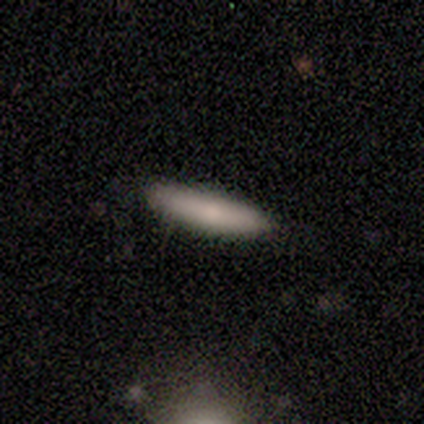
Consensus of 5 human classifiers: smooth-or-featured: smooth: 80% | featured or disk: 20% | star or artifact: 0%
  how-rounded: cigar-shaped: 75% | in between: 25% | round: 0%
  merging: none: 100% | minor disturbance: 0% | major disturbance: 0% | merger: 0%